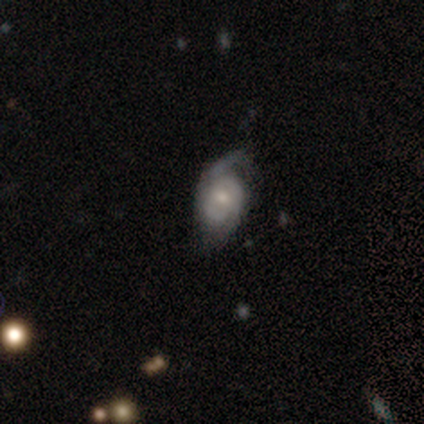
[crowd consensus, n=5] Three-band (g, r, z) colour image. It shows a smooth galaxy with no disk features (60%) that is in between round and cigar-shaped (100%). Merging: minor disturbance (60%).